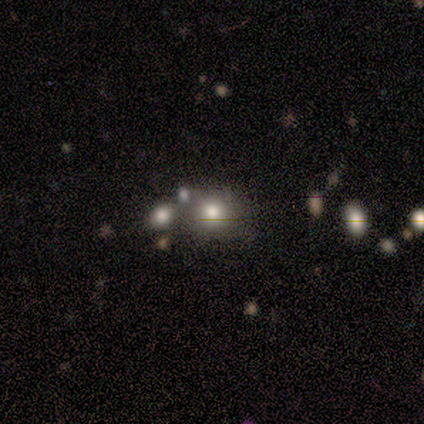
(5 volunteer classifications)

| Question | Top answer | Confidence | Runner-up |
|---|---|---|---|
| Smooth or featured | smooth | 80% | featured or disk (20%) |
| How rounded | round | 75% | in between (25%) |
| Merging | none | 60% | merger (40%) |